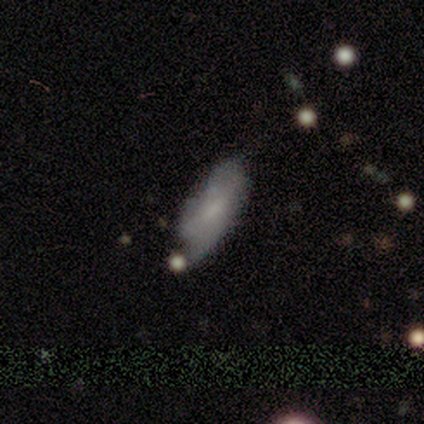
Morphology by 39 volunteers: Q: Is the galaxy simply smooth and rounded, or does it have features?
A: featured or disk — 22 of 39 (56%).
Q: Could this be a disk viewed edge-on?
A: no — 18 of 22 (82%).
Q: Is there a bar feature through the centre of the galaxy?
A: no — 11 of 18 (61%).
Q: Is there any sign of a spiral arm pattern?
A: yes — 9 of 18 (50%, tied with no).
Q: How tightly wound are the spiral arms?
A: medium — 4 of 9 (44%).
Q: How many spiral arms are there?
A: can't tell — 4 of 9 (44%).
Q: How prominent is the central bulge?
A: small — 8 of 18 (44%).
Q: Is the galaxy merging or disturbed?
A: minor disturbance — 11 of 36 (31%).